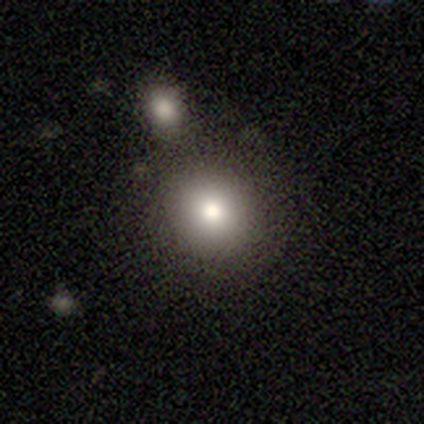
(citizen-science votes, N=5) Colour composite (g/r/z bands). It shows a smooth galaxy with no disk features (60%) that is round (100%). Merging: none (100%).